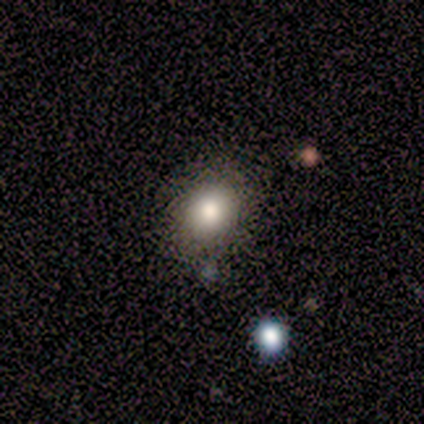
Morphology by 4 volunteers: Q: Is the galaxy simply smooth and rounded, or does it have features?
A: smooth — 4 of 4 (100%).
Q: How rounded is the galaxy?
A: round — 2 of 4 (50%, tied with in between).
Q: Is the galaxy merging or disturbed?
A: none — 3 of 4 (75%).